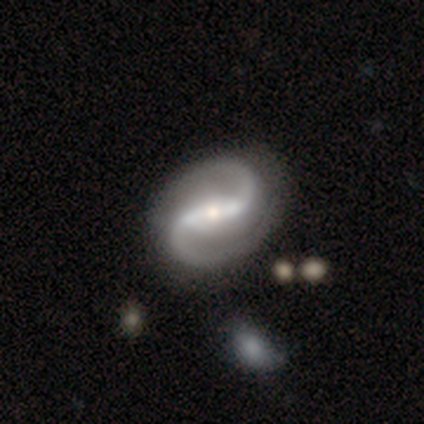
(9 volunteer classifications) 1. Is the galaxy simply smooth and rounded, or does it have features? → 89% featured or disk, 11% star or artifact, 0% smooth.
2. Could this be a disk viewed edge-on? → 100% no, 0% yes.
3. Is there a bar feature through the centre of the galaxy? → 62% strong, 38% weak, 0% no.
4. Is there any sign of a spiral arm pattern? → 100% yes, 0% no.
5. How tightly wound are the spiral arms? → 50% loose, 38% medium, 12% tight.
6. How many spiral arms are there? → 100% 2, 0% 1, 0% 3, 0% 4, 0% more than 4, 0% can't tell.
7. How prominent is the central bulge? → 88% moderate, 12% small, 0% dominant, 0% large, 0% none.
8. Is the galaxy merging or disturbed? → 100% none, 0% minor disturbance, 0% major disturbance, 0% merger.